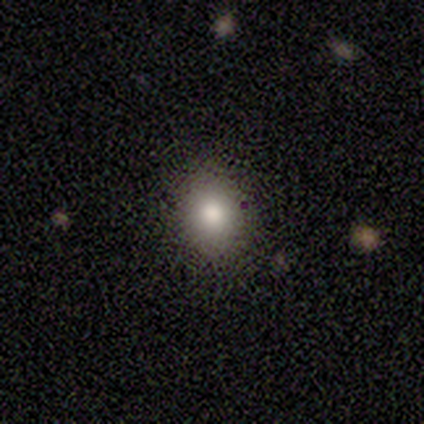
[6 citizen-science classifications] This is clearly a smooth galaxy (100%). How rounded: likely round (67%). Merging: clearly none (100%).